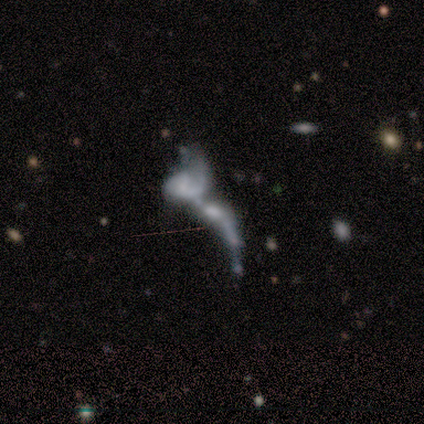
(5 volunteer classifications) Smooth or featured: featured or disk — 60% (smooth — 20%)
Edge-on disk: no — 100%
Bar: no — 67% (strong — 33%)
Spiral arms: yes — 67% (no — 33%)
Spiral winding: tight — 50% (tied with loose — 50%)
Spiral arm count: 1 — 100%
Bulge size: none — 67% (moderate — 33%)
Merging: merger — 100%